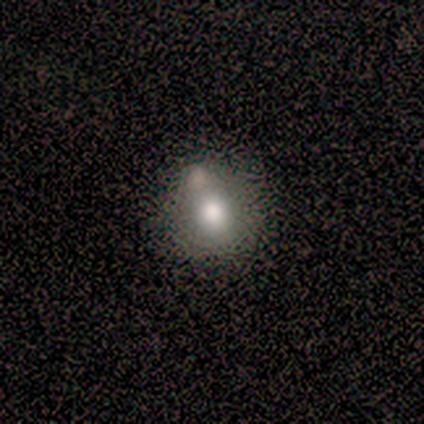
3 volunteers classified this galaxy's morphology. Q: Smooth or featured?
A: smooth (100%)
Q: How rounded?
A: round (67%); runner-up: in between (33%)
Q: Merging?
A: none (67%); runner-up: merger (33%)